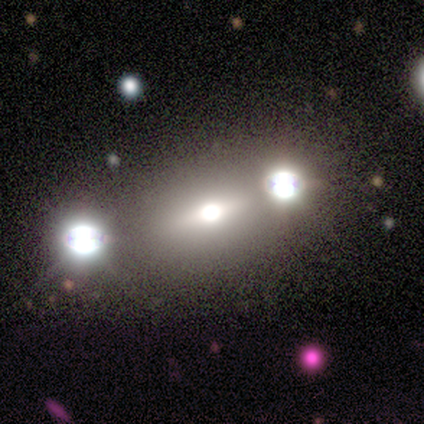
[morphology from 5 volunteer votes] Smooth or featured? star or artifact (60%)